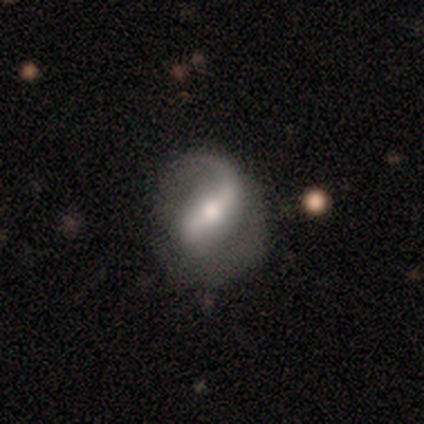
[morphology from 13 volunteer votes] This appears to be a featured or disk galaxy (85%) with a strong bar (50%), 1 (50%, tied with 2) loose (60%) spiral arms (100%) and a moderate central bulge (90%). Merging: none (31%, tied with minor disturbance and major disturbance).